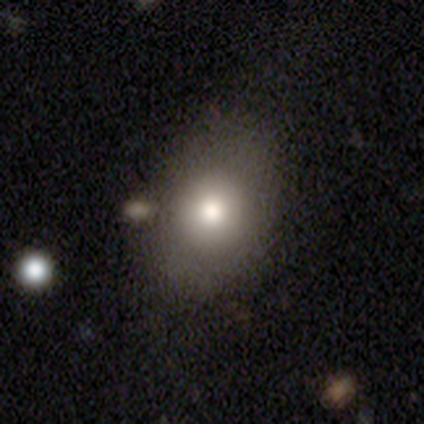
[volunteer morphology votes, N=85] smooth_or_featured: smooth (p=0.59) [alt: featured or disk p=0.27]
how_rounded: round (p=0.50) [tied with: in between p=0.50]
merging: none (p=0.58) [alt: minor disturbance p=0.29]